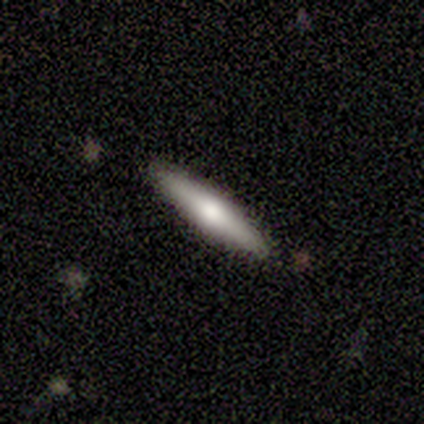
Q: Smooth or featured?
A: smooth (60%); runner-up: featured or disk (40%)
Q: How rounded?
A: cigar-shaped (100%)
Q: Merging?
A: none (100%)